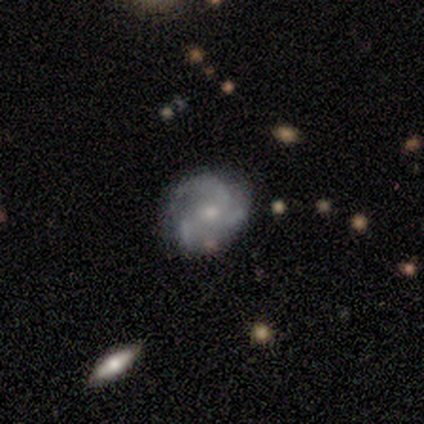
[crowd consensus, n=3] Q: Smooth or featured?
A: featured or disk (67%); runner-up: star or artifact (33%)
Q: Edge-on disk?
A: no (100%)
Q: Bar?
A: weak (50%); tied with: no (50%)
Q: Spiral arms?
A: yes (100%)
Q: Spiral winding?
A: loose (100%)
Q: Spiral arm count?
A: 3 (100%)
Q: Bulge size?
A: small (100%)
Q: Merging?
A: none (100%)